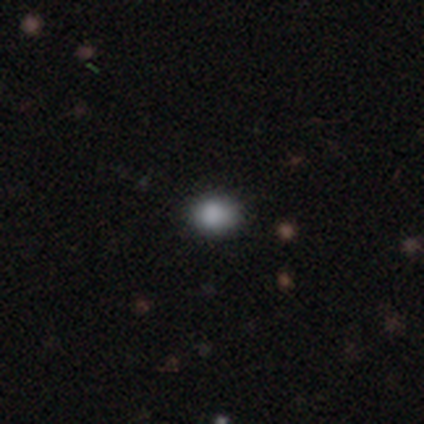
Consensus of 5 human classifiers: smooth-or-featured: smooth: 80% | star or artifact: 20% | featured or disk: 0%
  how-rounded: round: 75% | in between: 25% | cigar-shaped: 0%
  merging: none: 75% | major disturbance: 25% | minor disturbance: 0% | merger: 0%